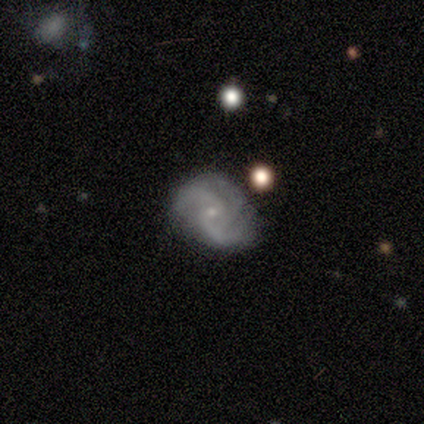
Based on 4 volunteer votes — Q: Smooth or featured?
A: featured or disk (75%); runner-up: star or artifact (25%)
Q: Edge-on disk?
A: no (100%)
Q: Bar?
A: no (67%); runner-up: weak (33%)
Q: Spiral arms?
A: yes (100%)
Q: Spiral winding?
A: medium (100%)
Q: Spiral arm count?
A: 3 (67%); runner-up: 2 (33%)
Q: Bulge size?
A: small (67%); runner-up: moderate (33%)
Q: Merging?
A: none (67%); runner-up: major disturbance (33%)